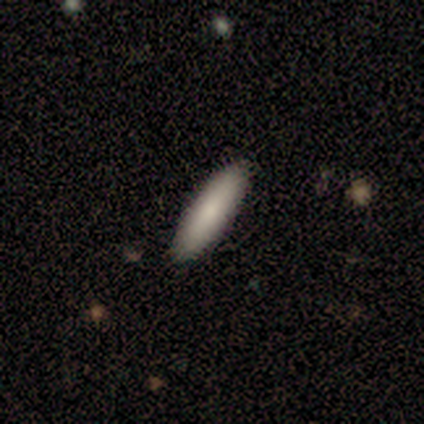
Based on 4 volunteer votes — Smooth or featured: smooth — 100%
How rounded: in between — 50% (tied with cigar-shaped — 50%)
Merging: none — 100%